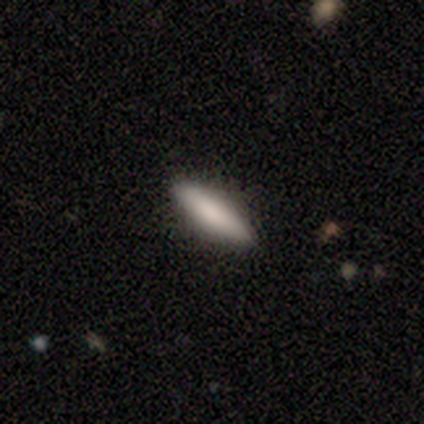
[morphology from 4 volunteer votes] Q: Smooth or featured?
A: smooth (100%)
Q: How rounded?
A: in between (50%); tied with: cigar-shaped (50%)
Q: Merging?
A: none (75%); runner-up: minor disturbance (25%)